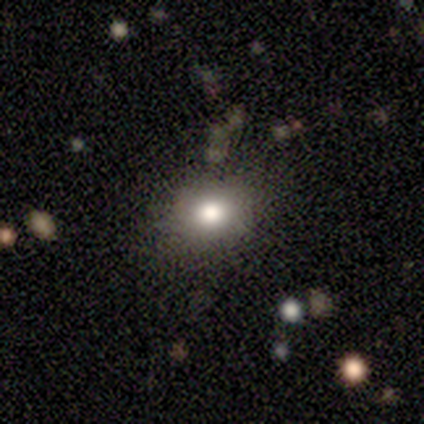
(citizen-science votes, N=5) Q: Smooth or featured?
A: smooth (100%)
Q: How rounded?
A: in between (60%); runner-up: round (40%)
Q: Merging?
A: none (100%)